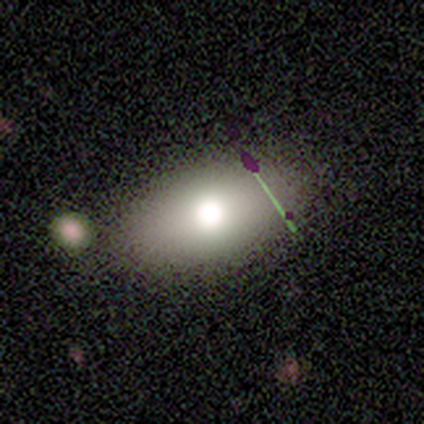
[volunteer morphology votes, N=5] This appears to be a smooth galaxy with no disk features (40%, tied with featured or disk) that is in between round and cigar-shaped (100%). Merging: none (75%).